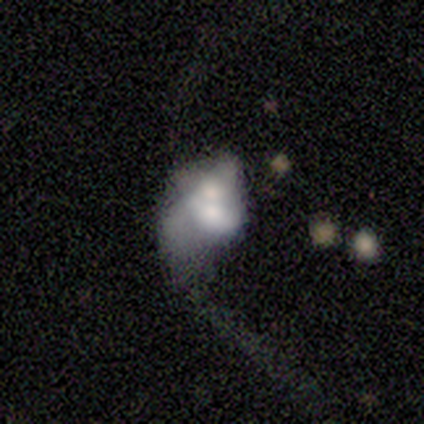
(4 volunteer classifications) featured or disk 75%, smooth 25%, star or artifact 0%. Down the decision tree: edge-on disk — no (100%); bar — weak (67%); spiral arms — no (100%); bulge size — large (33%, tied with moderate and small); merging — major disturbance (50%, tied with merger).